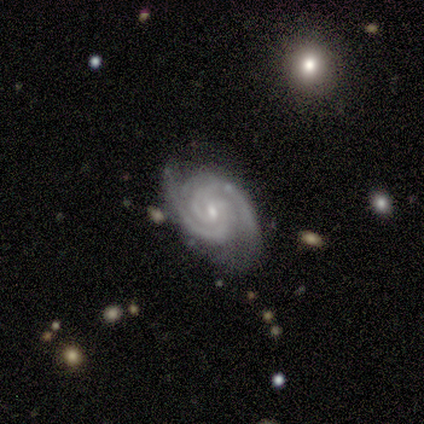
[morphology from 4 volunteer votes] smooth_or_featured: featured or disk (p=1.00)
disk_edge_on: no (p=1.00)
bar: weak (p=0.50) [tied with: no p=0.50]
has_spiral_arms: yes (p=1.00)
spiral_winding: tight (p=0.75) [alt: medium p=0.25]
spiral_arm_count: 2 (p=1.00)
bulge_size: small (p=1.00)
merging: none (p=1.00)